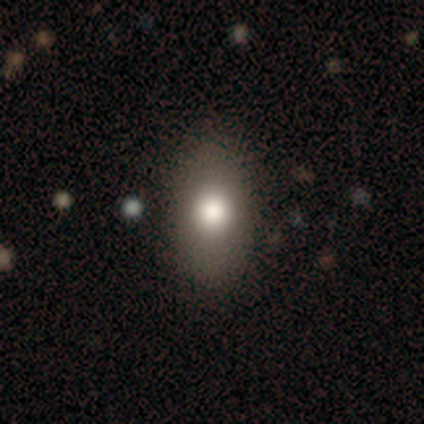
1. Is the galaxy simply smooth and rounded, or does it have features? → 100% smooth, 0% featured or disk, 0% star or artifact.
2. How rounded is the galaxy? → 100% in between, 0% round, 0% cigar-shaped.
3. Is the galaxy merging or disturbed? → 88% none, 12% minor disturbance, 0% major disturbance, 0% merger.